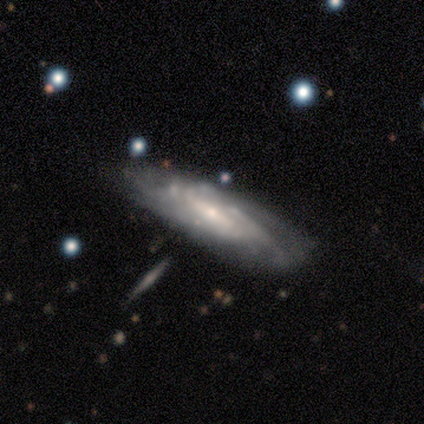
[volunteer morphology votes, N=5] A featured or disk galaxy (100%) with a weak bar (100%), 2 (33%, tied with 3 and can't tell) tight (67%) spiral arms (100%) and a small central bulge (67%).

Vote fractions:
- Smooth or featured? featured or disk: 100% / smooth: 0% / star or artifact: 0%
- Edge-on disk? no: 60% / yes: 40%
- Bar? weak: 100% / strong: 0% / no: 0%
- Spiral arms? yes: 100% / no: 0%
- Spiral winding? tight: 67% / medium: 33% / loose: 0%
- Spiral arm count? 2: 33% (tied) / 3: 33% (tied) / can't tell: 33% (tied) / 1: 0% / 4: 0% / more than 4: 0%
- Bulge size? small: 67% / moderate: 33% / dominant: 0% / large: 0% / none: 0%
- Merging? none: 60% / merger: 40% / minor disturbance: 0% / major disturbance: 0%